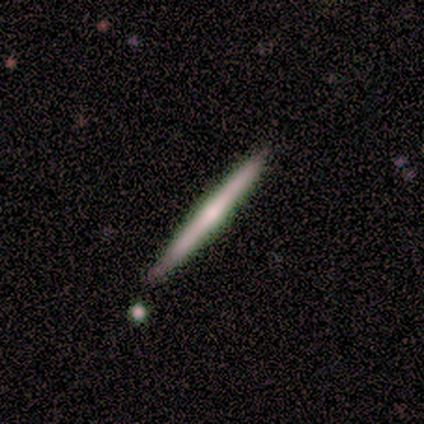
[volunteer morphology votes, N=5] This appears to be a featured or disk galaxy (60%) viewed edge-on (100%) with no central bulge (67%). Merging: none (80%).